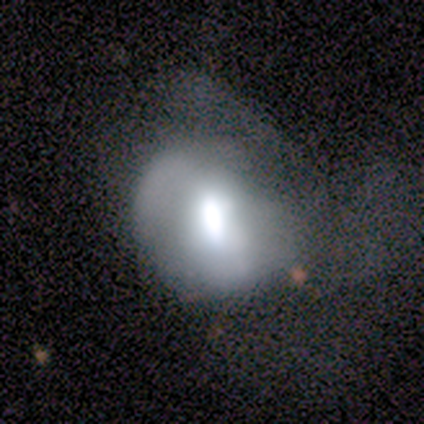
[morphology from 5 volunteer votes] Smooth or featured: featured or disk — 100%
Edge-on disk: no — 100%
Bar: weak — 40% (tied with no — 40%)
Spiral arms: no — 100%
Bulge size: moderate — 40% (dominant — 20%)
Merging: major disturbance — 80% (none — 20%)